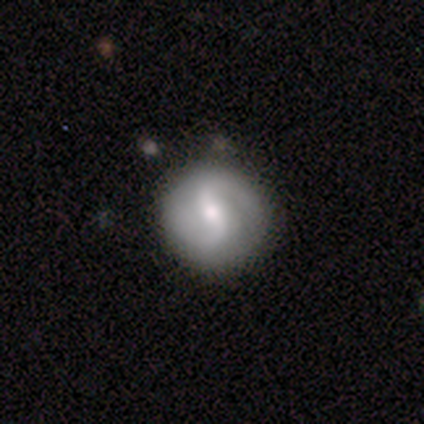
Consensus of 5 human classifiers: Q: Smooth or featured?
A: featured or disk (80%); runner-up: smooth (20%)
Q: Edge-on disk?
A: no (100%)
Q: Bar?
A: strong (50%); tied with: weak (50%)
Q: Spiral arms?
A: yes (100%)
Q: Spiral winding?
A: medium (50%); runner-up: tight (25%)
Q: Spiral arm count?
A: 2 (100%)
Q: Bulge size?
A: moderate (50%); tied with: small (50%)
Q: Merging?
A: none (80%); runner-up: minor disturbance (20%)